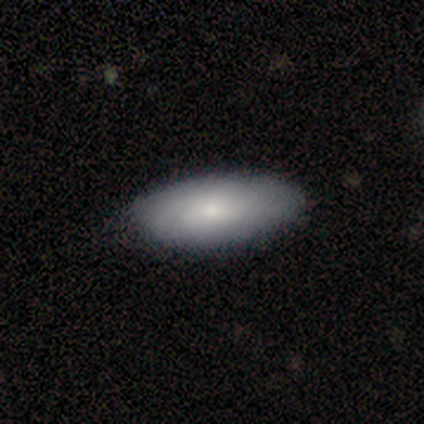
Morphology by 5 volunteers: Smooth or featured? 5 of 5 (100%) said smooth. How rounded? 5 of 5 (100%) said in between. Merging? 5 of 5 (100%) said none.